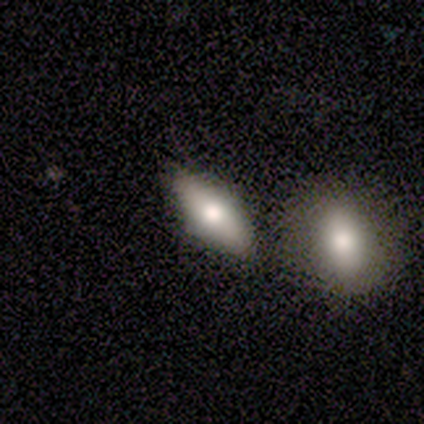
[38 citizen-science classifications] A smooth galaxy with no disk features (55%) that is in between round and cigar-shaped (62%). Merging: none (71%).